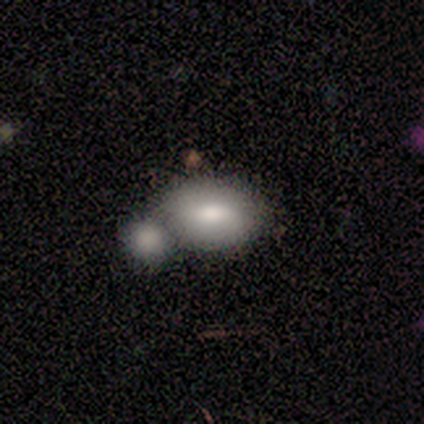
Morphology: type=smooth (50%, tied with featured or disk); roundness=in between (100%); merging=merger (100%).